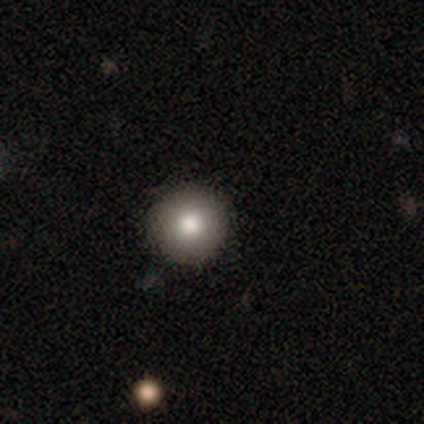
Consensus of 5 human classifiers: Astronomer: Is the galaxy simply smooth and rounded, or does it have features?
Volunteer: smooth — 80%.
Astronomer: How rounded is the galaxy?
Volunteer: round — 100%.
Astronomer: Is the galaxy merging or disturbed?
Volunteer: none — 100%.